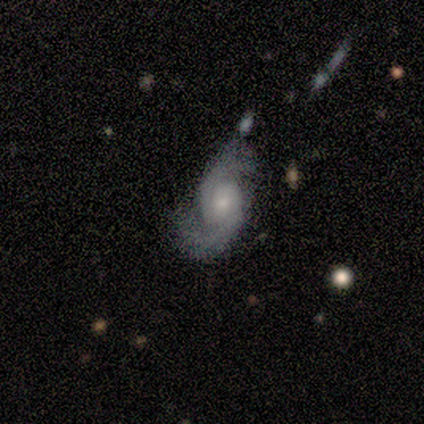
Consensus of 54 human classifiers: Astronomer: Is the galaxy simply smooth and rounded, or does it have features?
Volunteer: featured or disk — 87%.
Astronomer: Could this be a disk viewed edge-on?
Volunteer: no — 100%.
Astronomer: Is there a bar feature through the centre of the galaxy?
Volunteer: no — 68%.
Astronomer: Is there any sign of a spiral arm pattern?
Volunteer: yes — 100%.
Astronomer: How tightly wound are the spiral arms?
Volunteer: medium — 47% (runner-up: loose, 36%).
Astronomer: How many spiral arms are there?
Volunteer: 2 — 98%.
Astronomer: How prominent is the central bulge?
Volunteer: moderate — 47% (runner-up: small, 45%).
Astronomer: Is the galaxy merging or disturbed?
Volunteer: none — 68%.